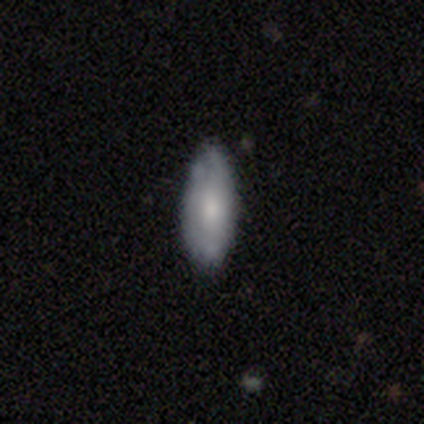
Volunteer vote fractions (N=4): Smooth or featured? 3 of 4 (75%) said smooth. How rounded? 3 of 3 (100%) said in between. Merging? 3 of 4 (75%) said minor disturbance.